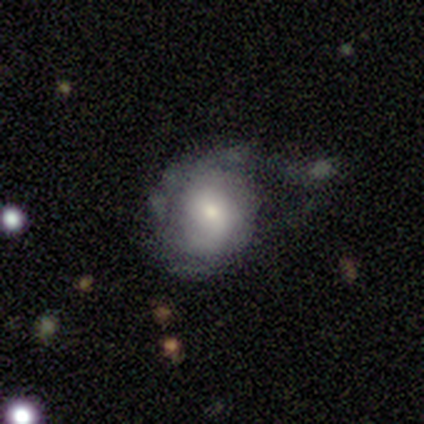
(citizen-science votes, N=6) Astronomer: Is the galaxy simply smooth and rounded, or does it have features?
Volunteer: featured or disk — 83%.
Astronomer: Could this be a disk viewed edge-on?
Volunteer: no — 100%.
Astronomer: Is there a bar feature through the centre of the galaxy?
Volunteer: no — 80%.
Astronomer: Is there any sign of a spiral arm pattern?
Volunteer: yes — 80%.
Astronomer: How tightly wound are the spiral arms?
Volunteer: medium — 75%.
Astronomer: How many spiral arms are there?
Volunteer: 1 — 50%.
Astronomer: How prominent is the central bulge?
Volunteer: moderate — 80%.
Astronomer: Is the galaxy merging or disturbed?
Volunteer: minor disturbance — 50%, tied with major disturbance at 50%.